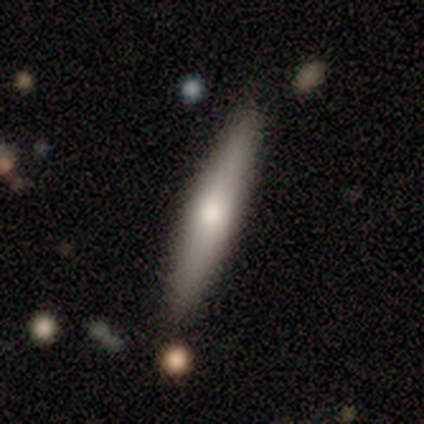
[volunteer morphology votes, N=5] Q: Smooth or featured?
A: featured or disk (60%); runner-up: smooth (40%)
Q: Edge-on disk?
A: yes (100%)
Q: Edge-on bulge?
A: rounded (100%)
Q: Merging?
A: none (80%); runner-up: minor disturbance (20%)